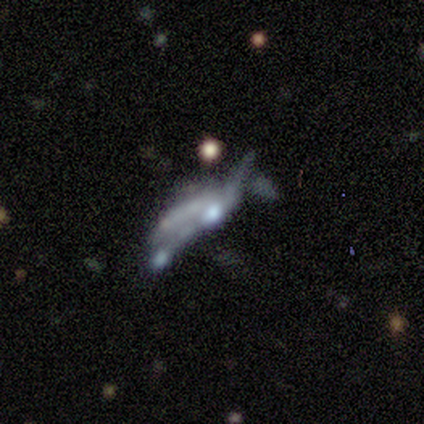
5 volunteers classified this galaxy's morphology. A featured or disk galaxy (60%) with no bar (100%), no spiral arms (67%) and a moderate central bulge (33%, tied with small and none). Merging: none (25%, tied with minor disturbance, major disturbance and merger).